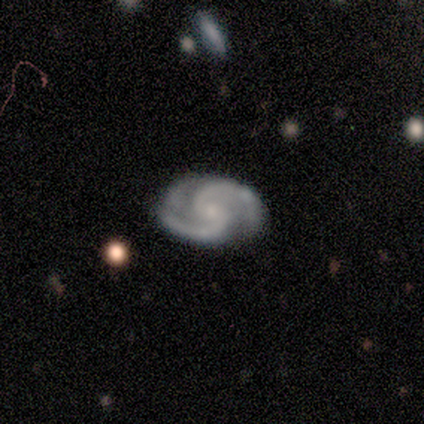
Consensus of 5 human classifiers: A featured or disk galaxy (100%) with a weak bar (75%), 2 (75%) tight (50%, tied with medium) spiral arms (100%) and a moderate central bulge (50%, tied with small). Merging: none (80%).